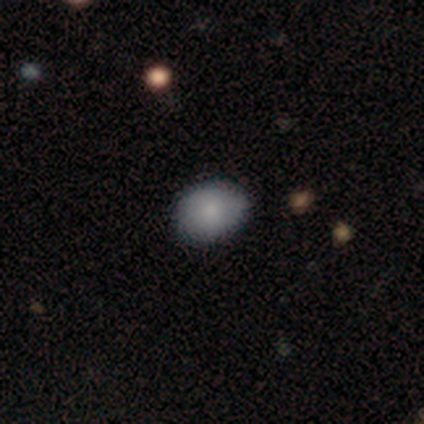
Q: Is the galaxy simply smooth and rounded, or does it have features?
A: smooth — 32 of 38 (84%).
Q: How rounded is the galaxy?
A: in between — 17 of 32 (53%).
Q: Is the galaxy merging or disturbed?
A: none — 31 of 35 (89%).